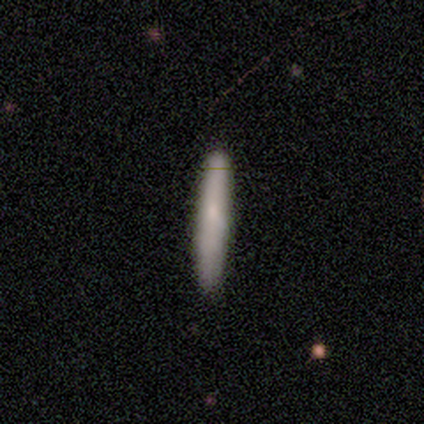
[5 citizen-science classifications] smooth_or_featured: smooth (p=0.60) [alt: featured or disk p=0.20]
how_rounded: cigar-shaped (p=1.00)
merging: none (p=1.00)